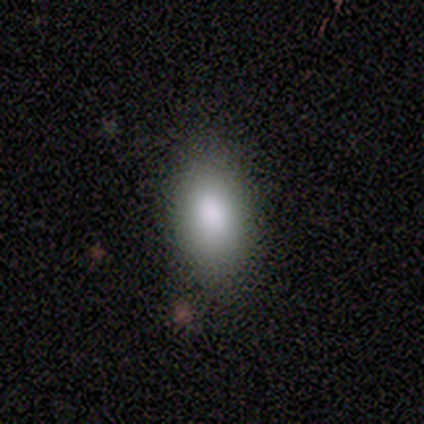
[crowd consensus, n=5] This appears to be a smooth galaxy with no disk features (80%) that is in between round and cigar-shaped (100%). Merging: none (100%).